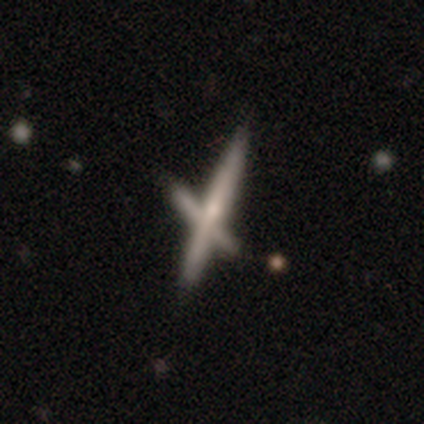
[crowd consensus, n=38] Volunteers were most divided on "smooth or featured": featured or disk: 47%, smooth: 29%, star or artifact: 24%. More confident: edge-on disk — yes (89%); edge-on bulge — rounded (75%); merging — none (62%).